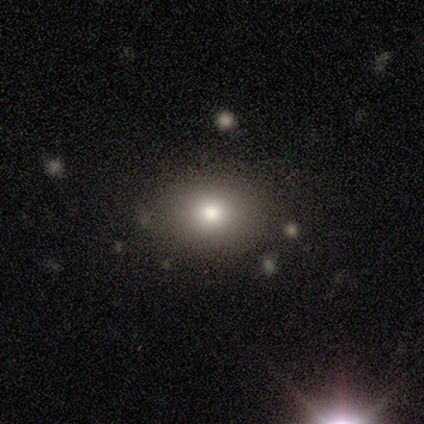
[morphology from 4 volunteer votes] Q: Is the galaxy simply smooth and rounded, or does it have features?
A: smooth — 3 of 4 (75%).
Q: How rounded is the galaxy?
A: round — 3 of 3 (100%).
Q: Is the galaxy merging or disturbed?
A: none — 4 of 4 (100%).